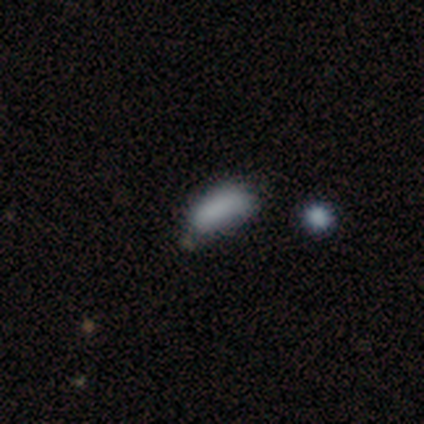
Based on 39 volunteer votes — Morphology: type=smooth (82%); roundness=in between (81%); merging=none (65%).